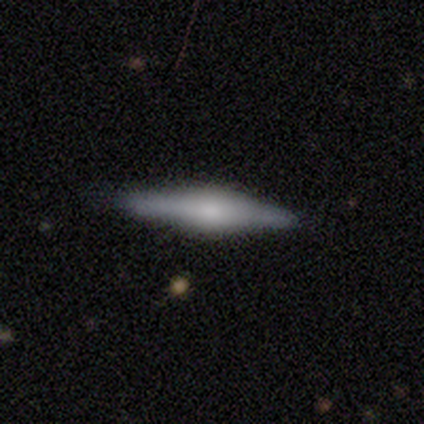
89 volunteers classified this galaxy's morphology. A featured or disk galaxy (63%) viewed edge-on (98%) with a rounded central bulge (64%).

Vote fractions:
- Smooth or featured? featured or disk: 63% / smooth: 33% / star or artifact: 4%
- Edge-on disk? yes: 98% / no: 2%
- Edge-on bulge? rounded: 64% / boxy: 31% / none: 5%
- Merging? none: 93% / minor disturbance: 5% / merger: 2% / major disturbance: 0%